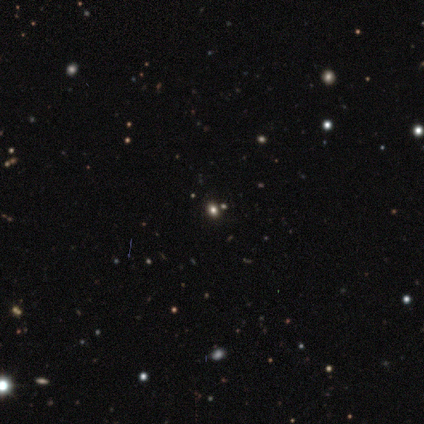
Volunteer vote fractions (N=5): Smooth or featured? 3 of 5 (60%) said smooth. How rounded? 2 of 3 (67%) said round. Merging? 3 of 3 (100%) said none.